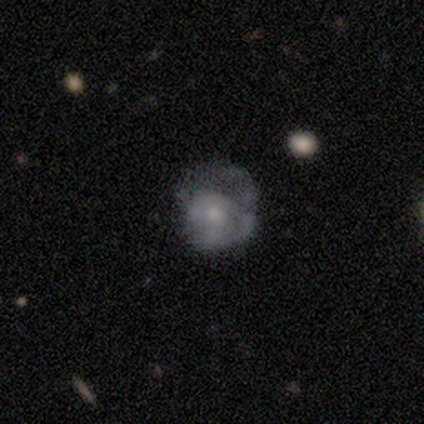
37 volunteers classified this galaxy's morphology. This appears to be a featured or disk galaxy (57%) with no bar (95%), 1 (40%, tied with can't tell) tight (60%) spiral arms (50%, tied with no) and a small central bulge (75%). Merging: major disturbance (52%).